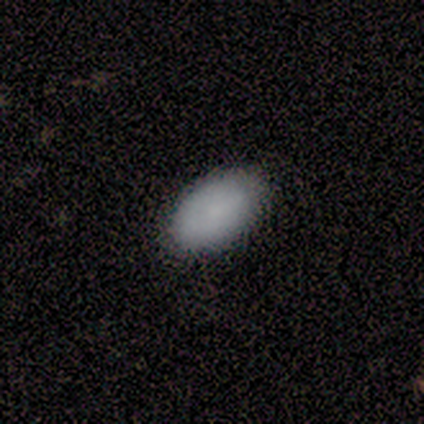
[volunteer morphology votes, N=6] This appears to be a smooth galaxy with no disk features (83%) that is in between round and cigar-shaped (100%). Merging: none (100%).